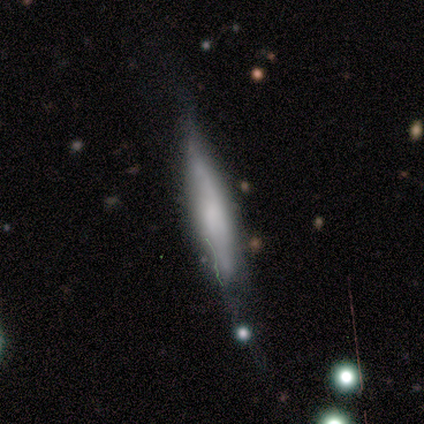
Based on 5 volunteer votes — Overall: smooth (60%; featured or disk 40%). How rounded: cigar-shaped (100%). Merging: none (80%).